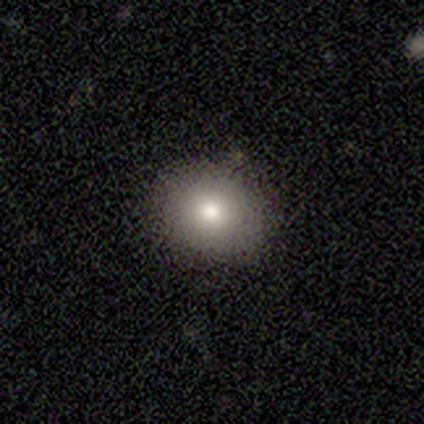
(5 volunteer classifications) A smooth galaxy with no disk features (100%) that is round (60%). Merging: minor disturbance (60%).